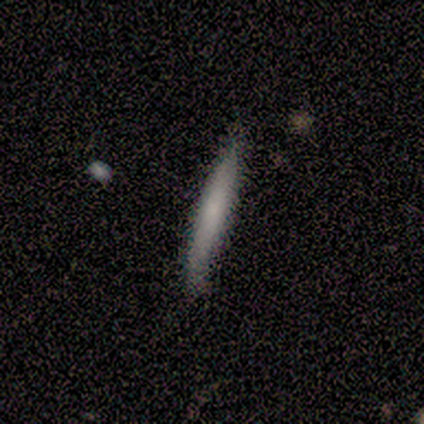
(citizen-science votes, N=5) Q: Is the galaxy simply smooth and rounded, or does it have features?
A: smooth — 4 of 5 (80%).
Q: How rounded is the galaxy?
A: cigar-shaped — 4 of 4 (100%).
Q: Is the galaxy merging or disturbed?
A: none — 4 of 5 (80%).